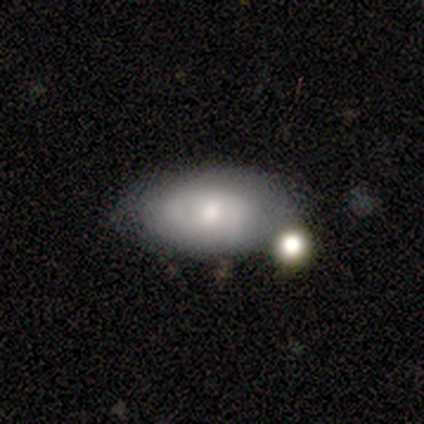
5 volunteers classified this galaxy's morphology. This appears to be a featured or disk galaxy (60%) with no bar (100%), no spiral arms (100%) and a moderate central bulge (100%). Merging: minor disturbance (40%, tied with merger).